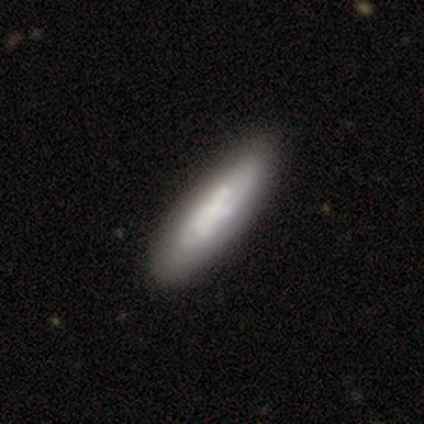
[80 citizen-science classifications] Q: Smooth or featured?
A: smooth (56%); runner-up: featured or disk (36%)
Q: How rounded?
A: cigar-shaped (73%); runner-up: in between (24%)
Q: Merging?
A: none (39%); runner-up: minor disturbance (8%)